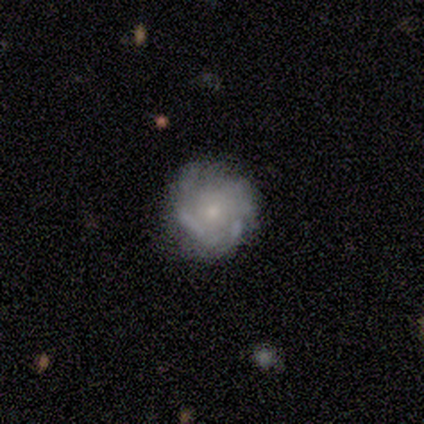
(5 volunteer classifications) This is clearly a featured or disk galaxy (80%). It is clearly not viewed edge-on (100%). Bar: possibly weak (50%, tied with no). Spiral arm pattern: likely yes (75%). Spiral arm count: clearly can't tell (100%). Spiral winding: likely tight (67%). Central bulge: clearly small (100%). Merging: possibly none (50%).